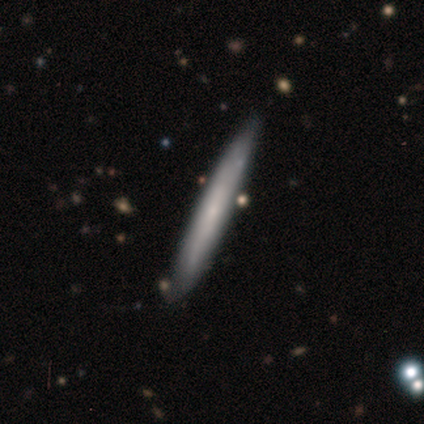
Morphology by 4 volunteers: Smooth or featured: smooth — 50% (tied with featured or disk — 50%)
How rounded: cigar-shaped — 100%
Merging: none — 75% (minor disturbance — 25%)